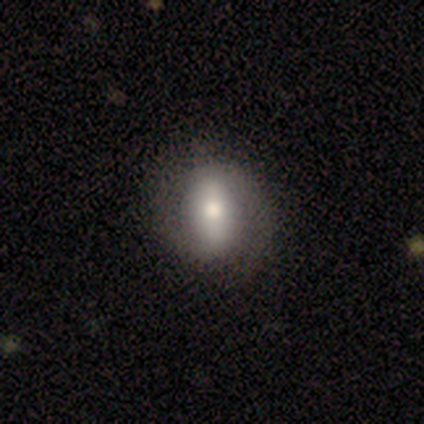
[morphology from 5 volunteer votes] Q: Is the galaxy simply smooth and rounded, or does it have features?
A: featured or disk — 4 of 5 (80%).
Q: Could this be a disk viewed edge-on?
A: no — 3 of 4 (75%).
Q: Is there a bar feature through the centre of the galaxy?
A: weak — 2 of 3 (67%).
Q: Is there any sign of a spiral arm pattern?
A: no — 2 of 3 (67%).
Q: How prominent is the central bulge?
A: dominant — 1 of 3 (33%, tied with large and moderate).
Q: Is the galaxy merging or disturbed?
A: none — 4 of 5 (80%).